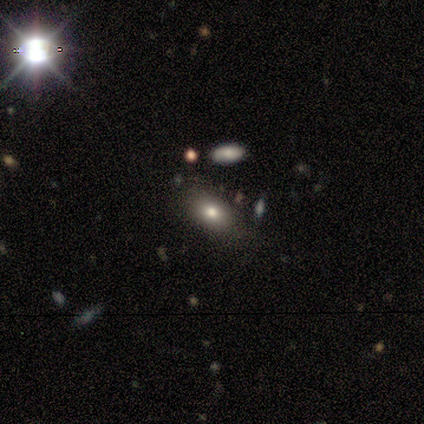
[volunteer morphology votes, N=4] Smooth or featured? 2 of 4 (50%) said smooth. How rounded? 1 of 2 (50%, tied with in between) said round. Merging? 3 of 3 (100%) said none.